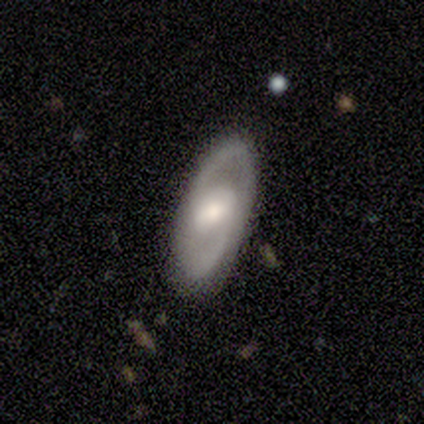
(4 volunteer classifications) This is likely a featured or disk galaxy (75%). It is clearly not viewed edge-on (100%). Bar: likely no (67%). Spiral arm pattern: clearly yes (100%). Spiral arm count: clearly 2 (100%). Spiral winding: likely medium (67%). Central bulge: marginally dominant (33%, tied with moderate and small). Merging: clearly none (100%).